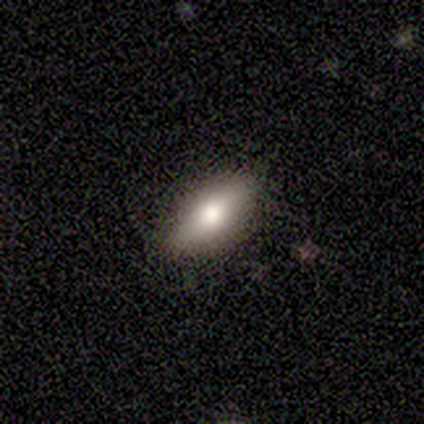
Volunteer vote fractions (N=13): Smooth or featured? 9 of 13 (69%) said smooth. How rounded? 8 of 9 (89%) said in between. Merging? 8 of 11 (73%) said none.